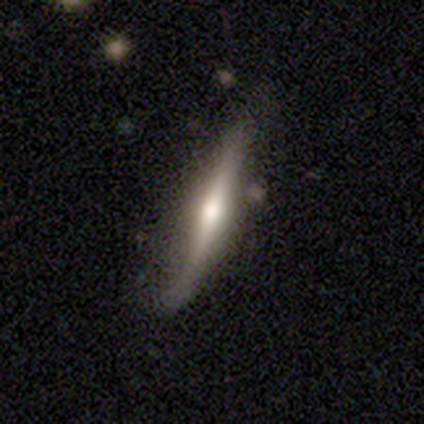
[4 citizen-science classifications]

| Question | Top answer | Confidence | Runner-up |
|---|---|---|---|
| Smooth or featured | featured or disk | 100% | — |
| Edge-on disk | yes | 100% | — |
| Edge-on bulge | rounded | 100% | — |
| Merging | none | 75% | minor disturbance (25%) |